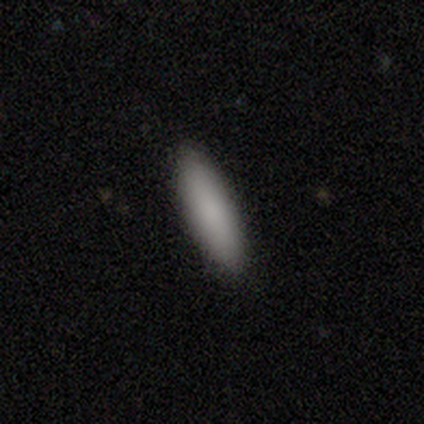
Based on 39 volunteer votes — Smooth or featured?
  - smooth: 92% *
  - featured or disk: 5%
  - star or artifact: 3%
How rounded?
  - cigar-shaped: 61% *
  - in between: 39%
  - round: 0%
Merging?
  - none: 89% *
  - minor disturbance: 11%
  - major disturbance: 0%
  - merger: 0%